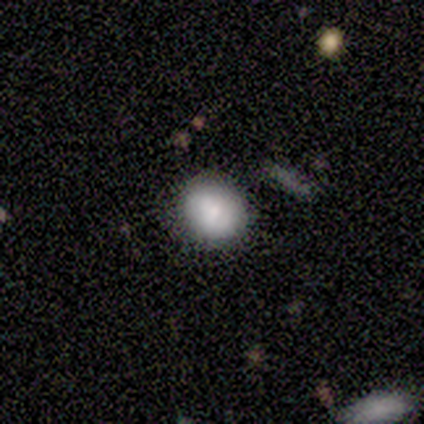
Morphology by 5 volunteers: Volunteers were most divided on "how rounded": round: 75%, in between: 25%, cigar-shaped: 0%. More confident: merging — none (100%); smooth or featured — smooth (80%).